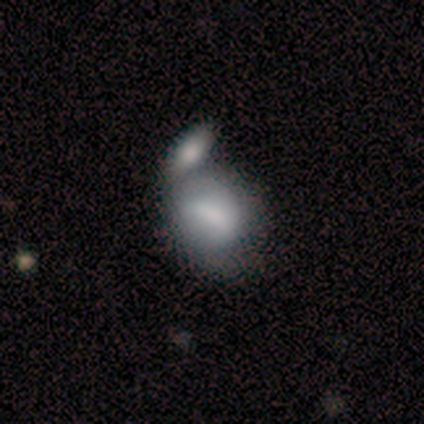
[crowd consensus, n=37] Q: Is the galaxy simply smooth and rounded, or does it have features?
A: smooth — 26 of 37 (70%).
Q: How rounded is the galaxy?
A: round — 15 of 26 (58%).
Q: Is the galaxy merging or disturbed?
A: merger — 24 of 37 (65%).